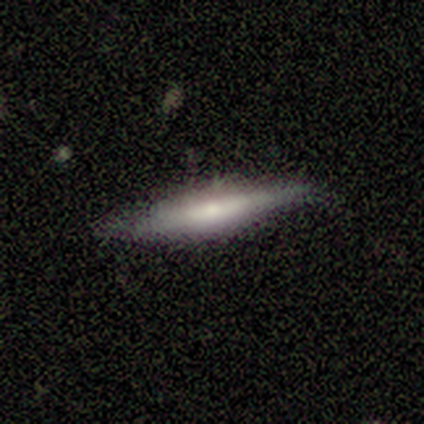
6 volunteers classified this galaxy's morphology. Smooth or featured? smooth (50%, tied with featured or disk)
How rounded? cigar-shaped (67%)
Merging? none (100%)